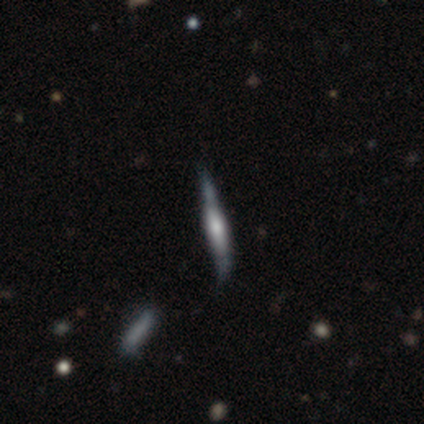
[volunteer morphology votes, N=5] Smooth or featured? 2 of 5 (40%, tied with featured or disk) said smooth. How rounded? 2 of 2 (100%) said cigar-shaped. Merging? 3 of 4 (75%) said none.